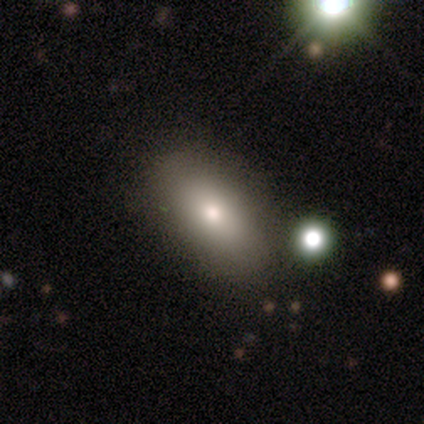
This appears to be a smooth galaxy with no disk features (83%) that is in between round and cigar-shaped (100%). Merging: none (80%).